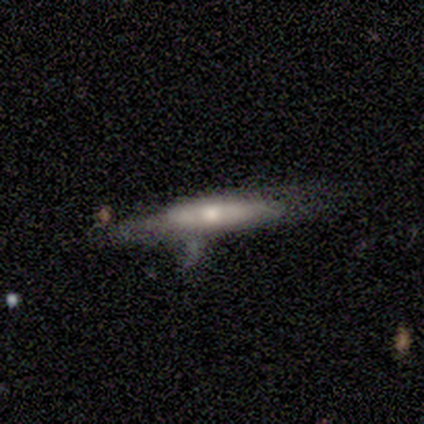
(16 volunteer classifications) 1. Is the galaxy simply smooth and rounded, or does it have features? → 56% featured or disk, 38% smooth, 6% star or artifact.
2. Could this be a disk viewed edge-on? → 67% yes, 33% no.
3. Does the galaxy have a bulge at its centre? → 67% rounded, 17% boxy, 17% none.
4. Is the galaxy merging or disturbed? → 53% minor disturbance, 20% none, 13% major disturbance, 13% merger.